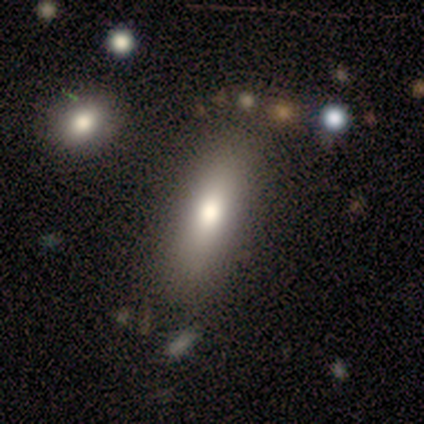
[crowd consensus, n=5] smooth_or_featured: smooth (p=0.60) [alt: featured or disk p=0.40]
how_rounded: in between (p=1.00)
merging: none (p=0.60) [alt: minor disturbance p=0.20]